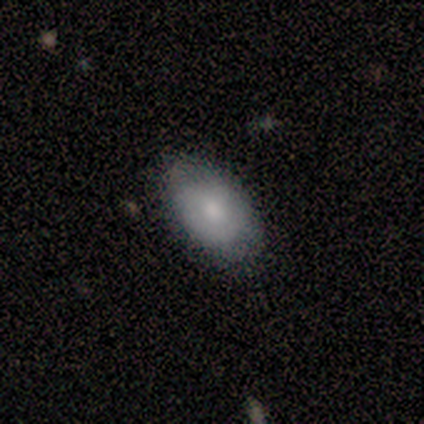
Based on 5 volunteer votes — Smooth or featured? smooth (60%)
How rounded? in between (100%)
Merging? none (60%)